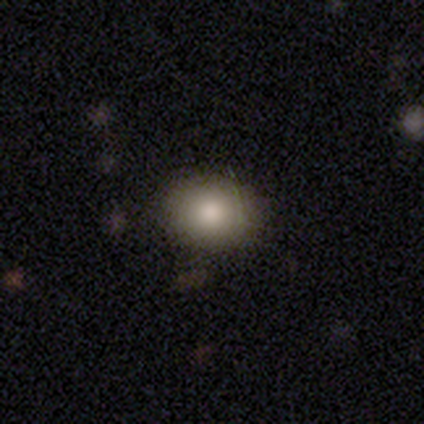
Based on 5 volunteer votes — Morphology: type=smooth (80%); roundness=round (50%, tied with in between); merging=none (100%).